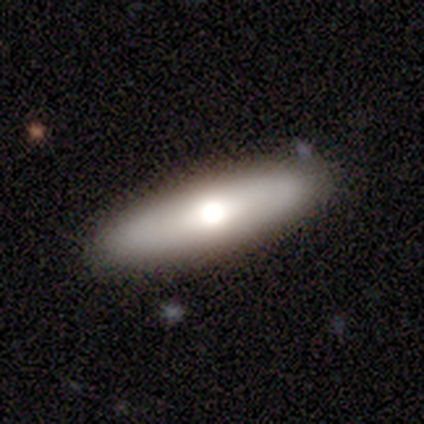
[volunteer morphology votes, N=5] This is likely a smooth galaxy (60%). How rounded: clearly cigar-shaped (100%). Merging: clearly none (100%).